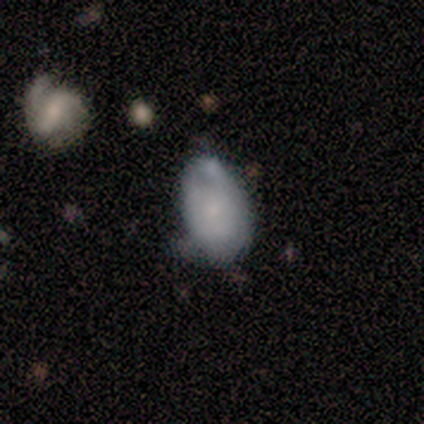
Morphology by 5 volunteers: Smooth or featured: smooth — 80% (featured or disk — 20%)
How rounded: in between — 100%
Merging: minor disturbance — 80% (none — 20%)